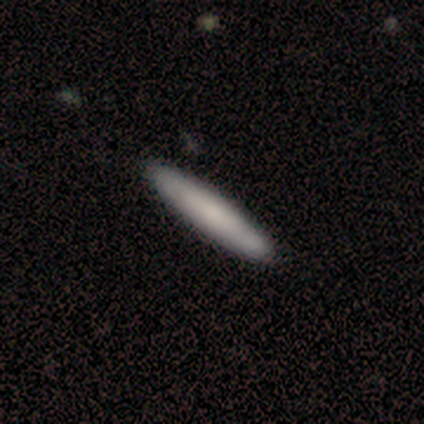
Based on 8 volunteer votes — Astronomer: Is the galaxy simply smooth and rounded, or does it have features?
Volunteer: smooth — 50%, tied with featured or disk at 50%.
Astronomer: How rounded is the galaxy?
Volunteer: in between — 50%, tied with cigar-shaped at 50%.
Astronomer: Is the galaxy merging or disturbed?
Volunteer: none — 75%.